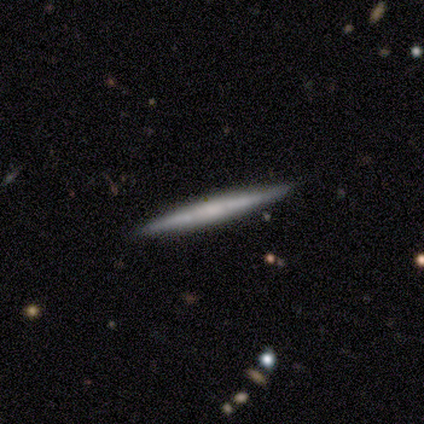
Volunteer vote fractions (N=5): Smooth or featured? 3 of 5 (60%) said featured or disk. Edge-on disk? 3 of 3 (100%) said yes. Edge-on bulge? 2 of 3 (67%) said none. Merging? 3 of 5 (60%) said minor disturbance.